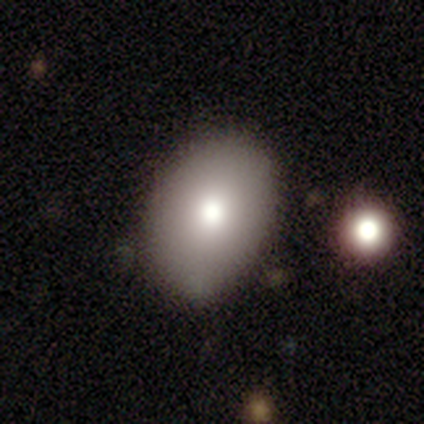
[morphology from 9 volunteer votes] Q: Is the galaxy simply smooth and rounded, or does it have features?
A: smooth — 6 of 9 (67%).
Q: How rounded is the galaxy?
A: in between — 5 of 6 (83%).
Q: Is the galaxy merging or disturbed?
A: none — 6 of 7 (86%).